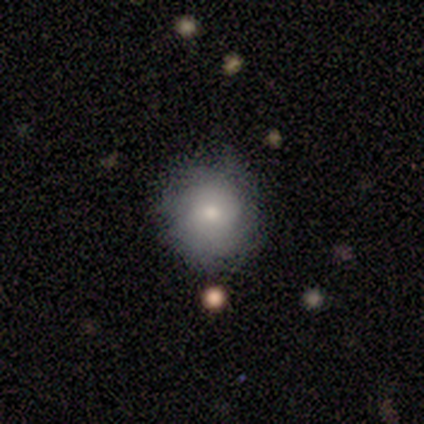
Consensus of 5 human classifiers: Smooth or featured?
  - smooth: 60% *
  - featured or disk: 20%
  - star or artifact: 20%
How rounded?
  - round: 100% *
  - in between: 0%
  - cigar-shaped: 0%
Merging?
  - none: 75% *
  - major disturbance: 25%
  - minor disturbance: 0%
  - merger: 0%